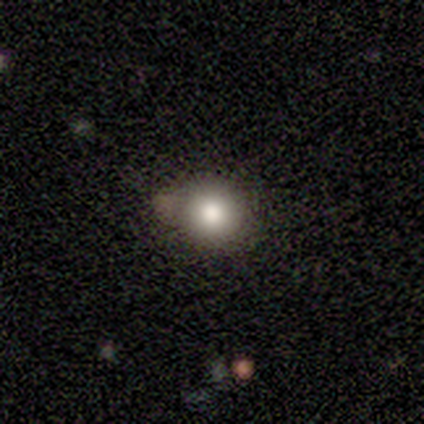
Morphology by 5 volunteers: smooth 100%, featured or disk 0%, star or artifact 0%. Down the decision tree: how rounded — round (60%); merging — none (60%).